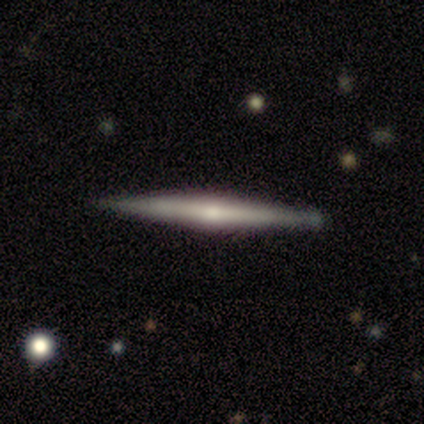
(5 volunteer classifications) featured or disk 80%, smooth 20%, star or artifact 0%. Down the decision tree: edge-on disk — yes (100%); edge-on bulge — rounded (75%); merging — none (100%).